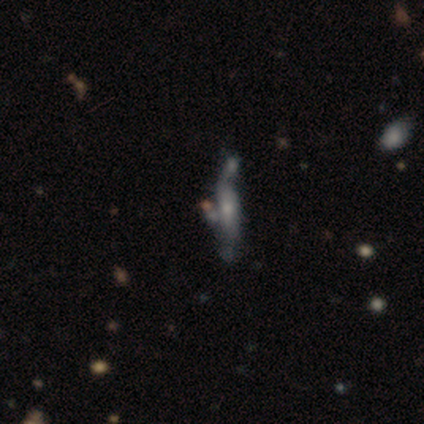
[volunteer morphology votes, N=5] smooth_or_featured: featured or disk (p=0.80) [alt: star or artifact p=0.20]
disk_edge_on: yes (p=1.00)
edge_on_bulge: none (p=0.50) [tied with: rounded p=0.50]
merging: none (p=0.50) [alt: major disturbance p=0.25]